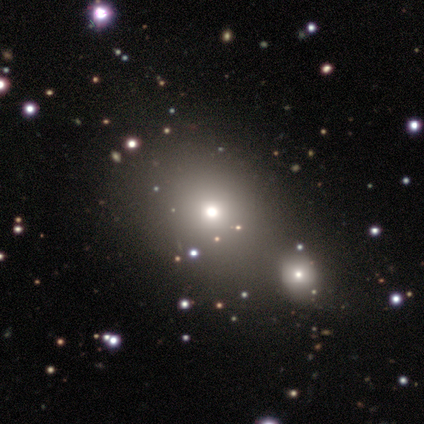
This appears to be a star or artifact, not a galaxy (57%).